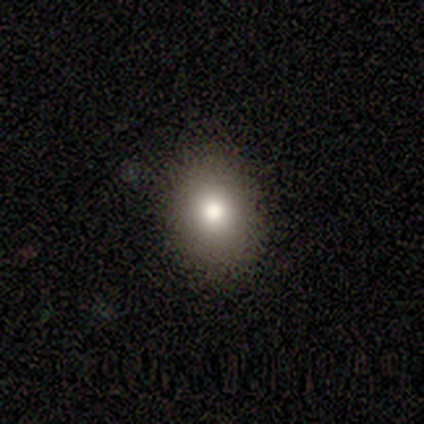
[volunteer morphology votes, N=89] Q: Smooth or featured?
A: smooth (76%); runner-up: featured or disk (12%)
Q: How rounded?
A: in between (59%); runner-up: round (41%)
Q: Merging?
A: none (89%); runner-up: minor disturbance (9%)